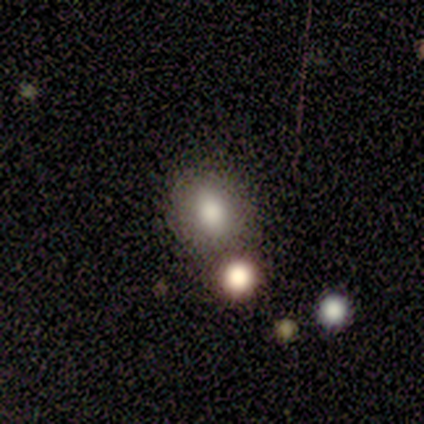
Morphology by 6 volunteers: Smooth or featured?
  - smooth: 67% *
  - featured or disk: 17%
  - star or artifact: 17%
How rounded?
  - round: 75% *
  - in between: 25%
  - cigar-shaped: 0%
Merging?
  - none: 60% *
  - minor disturbance: 20%
  - merger: 20%
  - major disturbance: 0%